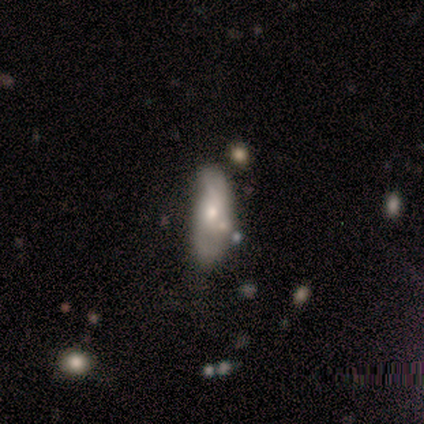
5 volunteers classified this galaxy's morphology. Smooth or featured?
  - smooth: 60% *
  - featured or disk: 40%
  - star or artifact: 0%
How rounded?
  - cigar-shaped: 67% *
  - in between: 33%
  - round: 0%
Merging?
  - none: 40% * (tied)
  - merger: 40% * (tied)
  - minor disturbance: 20%
  - major disturbance: 0%